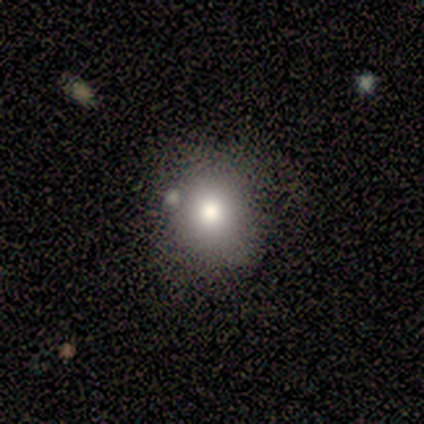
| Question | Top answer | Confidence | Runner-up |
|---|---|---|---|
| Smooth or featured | smooth | 80% | star or artifact (20%) |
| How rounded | round | 100% | — |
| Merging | none | 75% | minor disturbance (25%) |